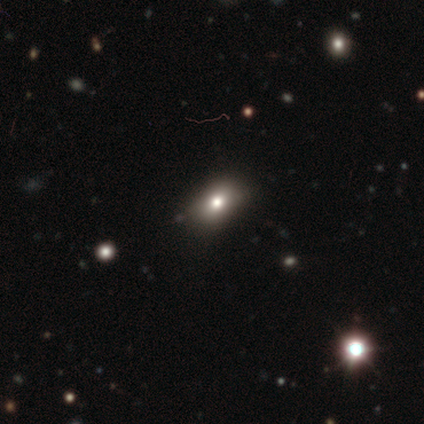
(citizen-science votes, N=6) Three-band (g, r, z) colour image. It shows a smooth galaxy with no disk features (83%) that is in between round and cigar-shaped (100%). Merging: none (67%).